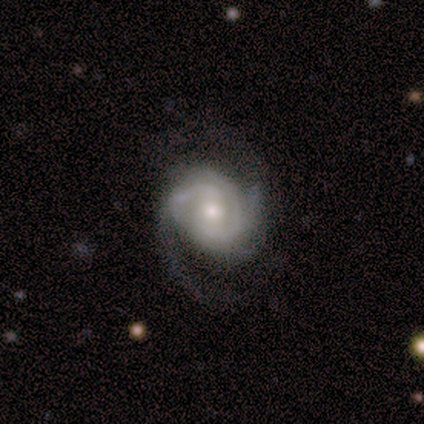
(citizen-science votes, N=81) Q: Smooth or featured?
A: featured or disk (95%); runner-up: smooth (2%)
Q: Edge-on disk?
A: no (97%); runner-up: yes (3%)
Q: Bar?
A: no (61%); runner-up: weak (24%)
Q: Spiral arms?
A: yes (96%); runner-up: no (4%)
Q: Spiral winding?
A: medium (47%); runner-up: tight (43%)
Q: Spiral arm count?
A: 2 (46%); runner-up: can't tell (21%)
Q: Bulge size?
A: moderate (59%); runner-up: small (32%)
Q: Merging?
A: none (32%); runner-up: minor disturbance (13%)